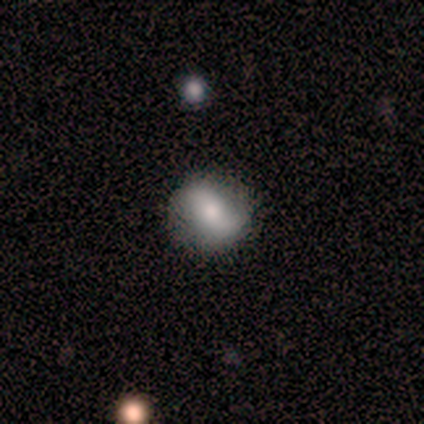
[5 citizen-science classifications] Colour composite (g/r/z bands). It shows a smooth galaxy with no disk features (60%) that is round (67%). Merging: none (80%).